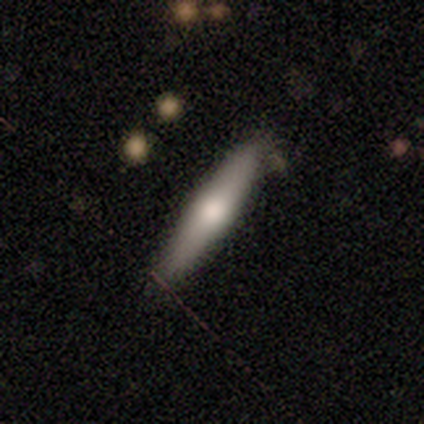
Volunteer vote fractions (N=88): This appears to be a smooth galaxy with no disk features (62%) that is cigar-shaped (87%). Merging: none (78%).